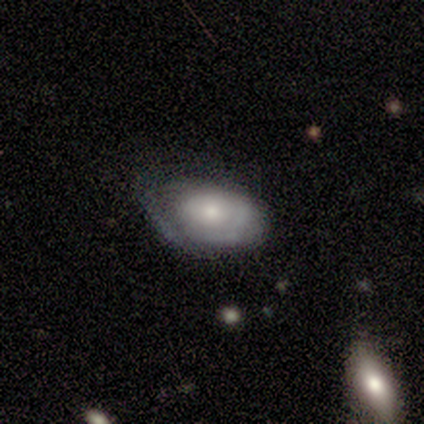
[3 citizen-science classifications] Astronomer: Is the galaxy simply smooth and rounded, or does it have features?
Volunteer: smooth — 67%.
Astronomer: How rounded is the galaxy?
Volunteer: in between — 100%.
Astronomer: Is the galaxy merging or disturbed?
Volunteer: none — 67%.